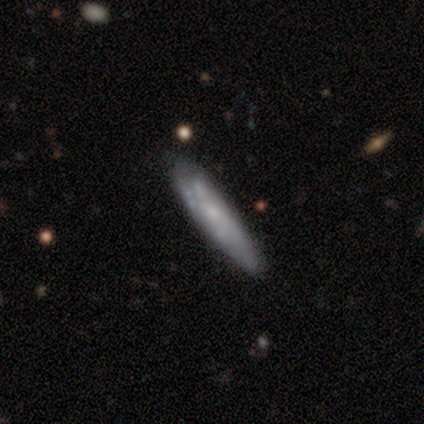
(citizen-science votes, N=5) Smooth or featured: featured or disk — 60% (smooth — 40%)
Edge-on disk: no — 67% (yes — 33%)
Bar: no — 100%
Spiral arms: yes — 50% (tied with no — 50%)
Spiral winding: medium — 100%
Spiral arm count: 1 — 100%
Bulge size: small — 100%
Merging: none — 80% (minor disturbance — 20%)